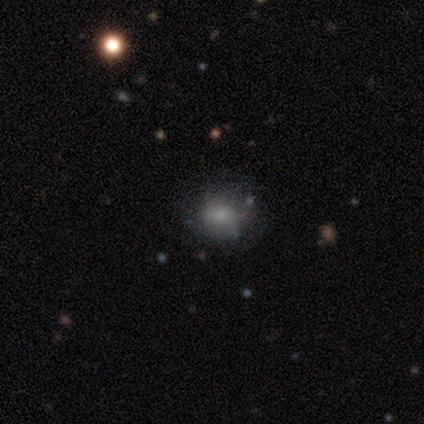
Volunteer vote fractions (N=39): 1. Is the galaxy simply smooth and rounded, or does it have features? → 59% smooth, 31% featured or disk, 10% star or artifact.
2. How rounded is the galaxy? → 61% round, 39% in between, 0% cigar-shaped.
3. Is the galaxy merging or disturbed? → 49% none (tied), 49% minor disturbance (tied), 3% major disturbance, 0% merger.